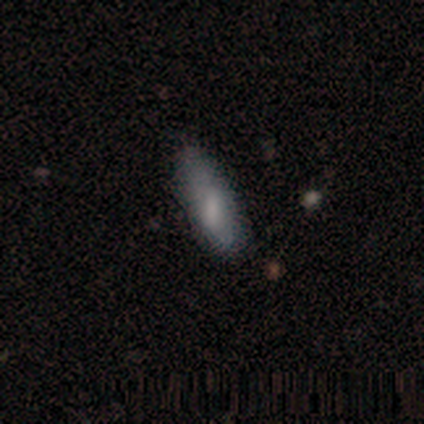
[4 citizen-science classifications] smooth 50% (tied), star or artifact 50% (tied), featured or disk 0%. Down the decision tree: how rounded — in between (50%, tied with cigar-shaped); merging — none (50%, tied with minor disturbance).